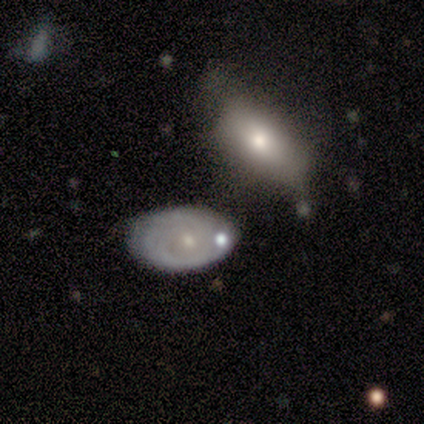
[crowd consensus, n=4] Smooth or featured? smooth (50%, tied with star or artifact)
How rounded? in between (100%)
Merging? minor disturbance (50%, tied with merger)